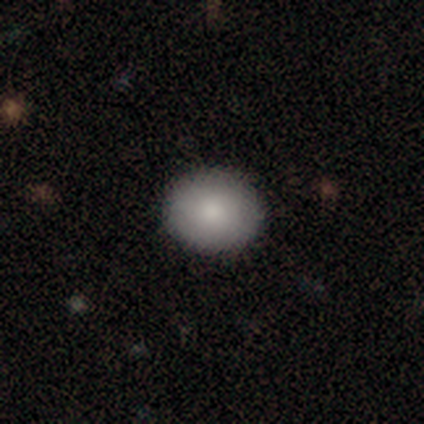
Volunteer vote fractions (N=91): Smooth or featured? smooth (82%)
How rounded? round (69%)
Merging? none (93%)